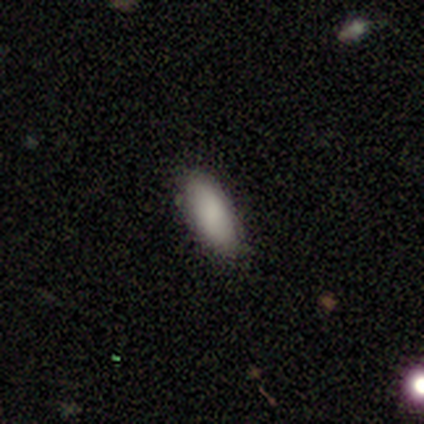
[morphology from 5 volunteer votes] This is clearly a smooth galaxy (100%). How rounded: clearly in between (100%). Merging: clearly none (80%).